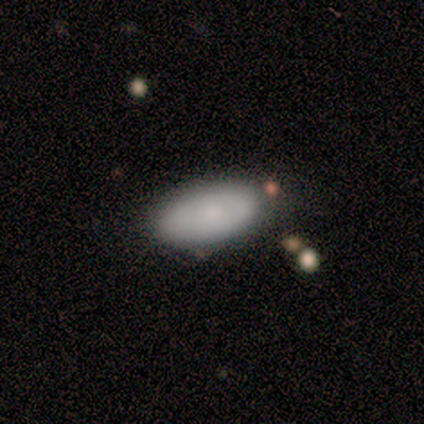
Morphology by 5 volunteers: smooth-or-featured: smooth: 100% | featured or disk: 0% | star or artifact: 0%
  how-rounded: in between: 100% | round: 0% | cigar-shaped: 0%
  merging: none: 60% | minor disturbance: 40% | major disturbance: 0% | merger: 0%